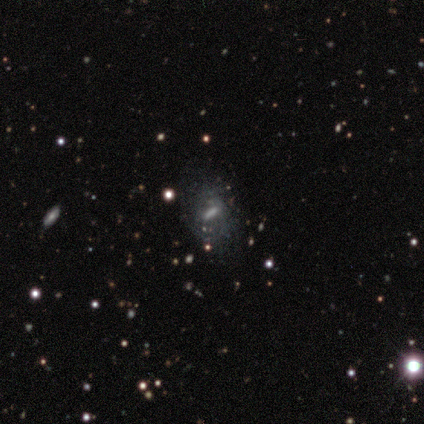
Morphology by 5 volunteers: This is clearly a featured or disk galaxy (80%). It is clearly not viewed edge-on (100%). Bar: possibly weak (50%, tied with no). Spiral arm pattern: likely no (75%). Central bulge: possibly moderate (50%). Merging: clearly none (80%).